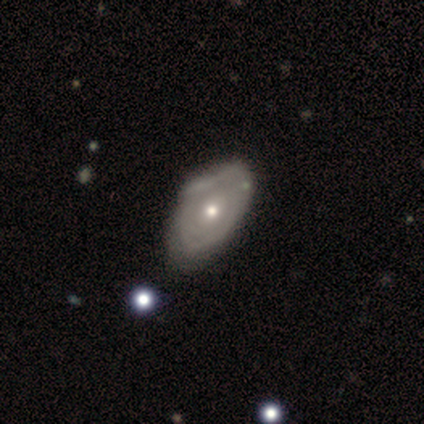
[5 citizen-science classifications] Smooth or featured? featured or disk (80%)
Edge-on disk? no (75%)
Bar? no (100%)
Spiral arms? no (67%)
Bulge size? moderate (67%)
Merging? none (80%)